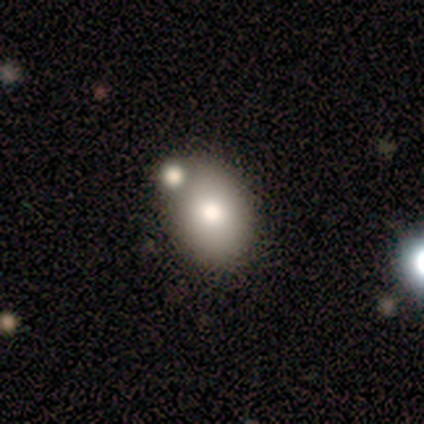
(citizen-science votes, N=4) This is possibly a featured or disk galaxy (50%). It is clearly not viewed edge-on (100%). Bar: clearly no (100%). Spiral arm pattern: clearly no (100%). Central bulge: possibly dominant (50%, tied with moderate). Merging: likely none (67%).